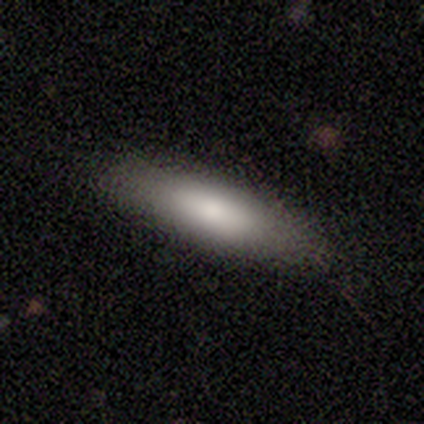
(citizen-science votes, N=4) Smooth or featured: smooth — 100%
How rounded: in between — 75% (cigar-shaped — 25%)
Merging: none — 100%